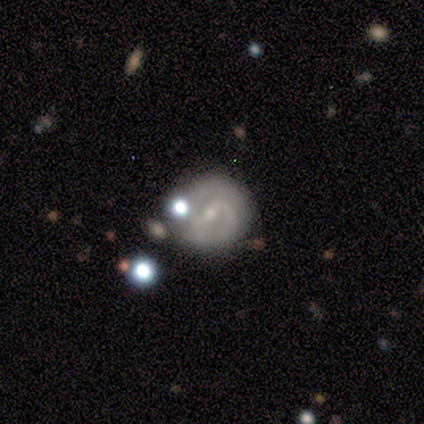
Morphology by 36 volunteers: smooth-or-featured: featured or disk: 86% | star or artifact: 8% | smooth: 6%
  disk-edge-on: no: 100% | yes: 0%
    bar: weak: 58% | strong: 32% | no: 10%
    has-spiral-arms: yes: 87% | no: 13%
      spiral-winding: medium: 52% | tight: 37% | loose: 11%
      spiral-arm-count: 2: 78% | 1: 7% | 3: 7% | 4: 4% | can't tell: 4% | more than 4: 0%
    bulge-size: small: 71% | moderate: 19% | dominant: 3% | large: 3% | none: 3%
  merging: none: 79% | minor disturbance: 12% | merger: 6% | major disturbance: 3%